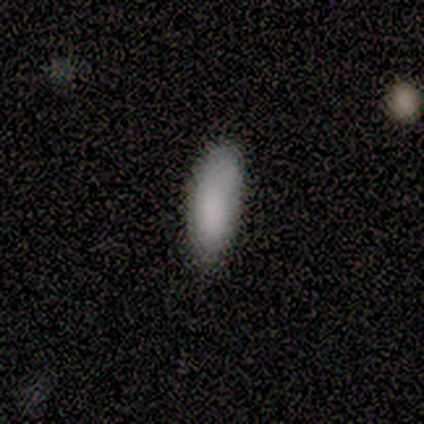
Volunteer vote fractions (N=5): Volunteers were most divided on "merging": none: 60%, minor disturbance: 20%, major disturbance: 20%, merger: 0%. More confident: smooth or featured — smooth (80%); how rounded — in between (75%).